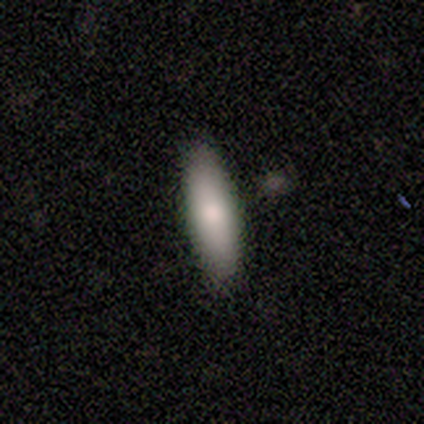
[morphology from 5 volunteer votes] type=smooth (80%); roundness=in between (50%, tied with cigar-shaped); merging=none (100%).